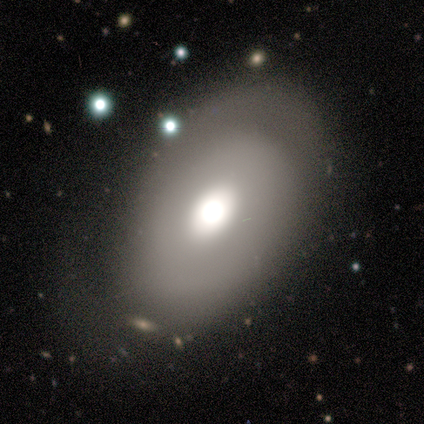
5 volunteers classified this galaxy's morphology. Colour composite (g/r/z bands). It shows a featured or disk galaxy (80%) with no bar (75%), 2 (50%, tied with can't tell) tight (50%, tied with medium) spiral arms (50%, tied with no) and a moderate central bulge (75%). Merging: none (80%).